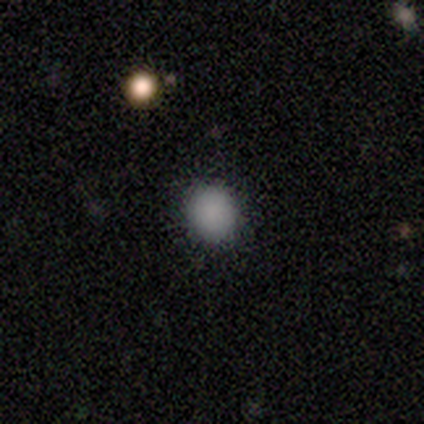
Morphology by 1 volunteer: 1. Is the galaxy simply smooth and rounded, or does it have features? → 100% smooth, 0% featured or disk, 0% star or artifact.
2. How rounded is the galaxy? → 100% in between, 0% round, 0% cigar-shaped.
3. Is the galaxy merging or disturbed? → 100% none, 0% minor disturbance, 0% major disturbance, 0% merger.